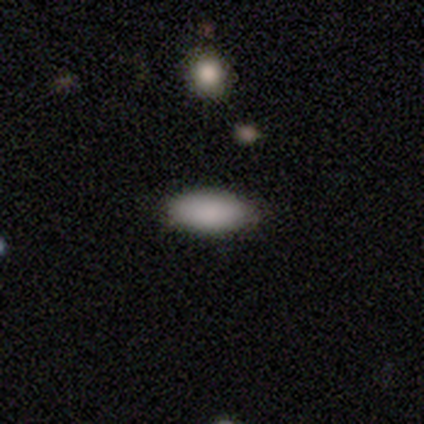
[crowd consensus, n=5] smooth-or-featured: smooth: 100% | featured or disk: 0% | star or artifact: 0%
  how-rounded: in between: 60% | cigar-shaped: 40% | round: 0%
  merging: none: 100% | minor disturbance: 0% | major disturbance: 0% | merger: 0%